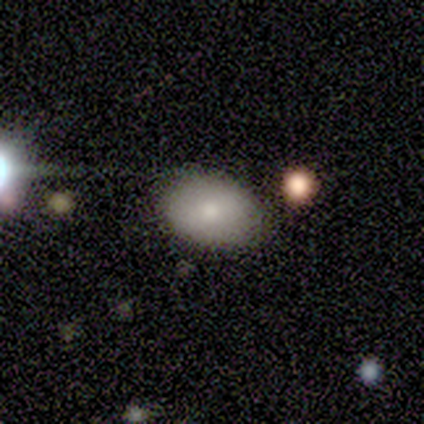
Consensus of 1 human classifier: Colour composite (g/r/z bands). It shows a featured or disk galaxy (100%) with no bar (100%), no spiral arms (100%) and a dominant central bulge (100%). Merging: none (100%).